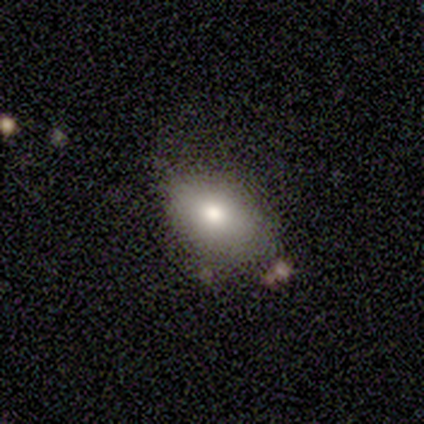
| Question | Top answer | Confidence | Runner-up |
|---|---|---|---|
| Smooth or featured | smooth | 100% | — |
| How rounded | in between | 100% | — |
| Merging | none | 60% | minor disturbance (20%) |